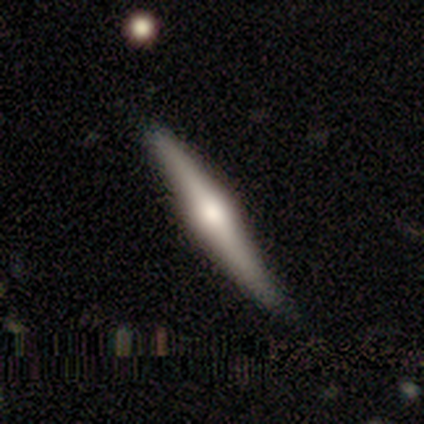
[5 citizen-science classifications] featured or disk 80%, smooth 20%, star or artifact 0%. Down the decision tree: edge-on disk — yes (100%); edge-on bulge — rounded (100%); merging — none (80%).